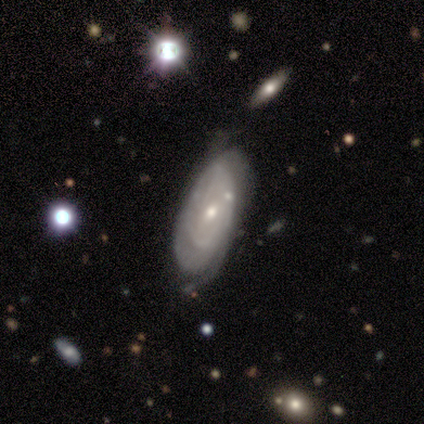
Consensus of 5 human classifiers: This appears to be a featured or disk galaxy (80%) with no bar (100%), tight (100%) spiral arms (67%) and a moderate central bulge (67%). Merging: major disturbance (60%).